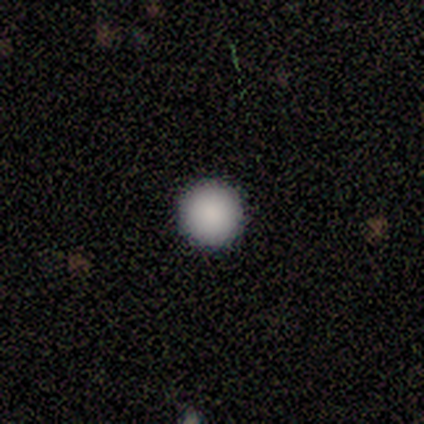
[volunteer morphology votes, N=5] Smooth or featured? smooth (100%)
How rounded? round (100%)
Merging? none (100%)